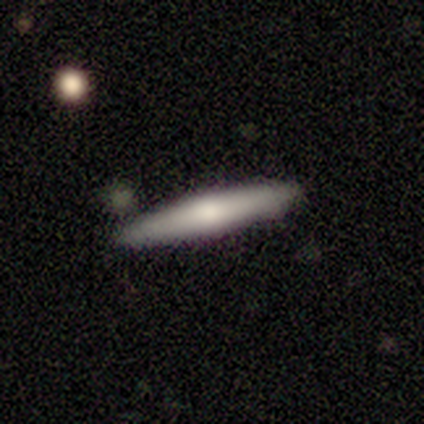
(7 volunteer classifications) Smooth or featured? 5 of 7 (71%) said smooth. How rounded? 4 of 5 (80%) said cigar-shaped. Merging? 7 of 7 (100%) said none.